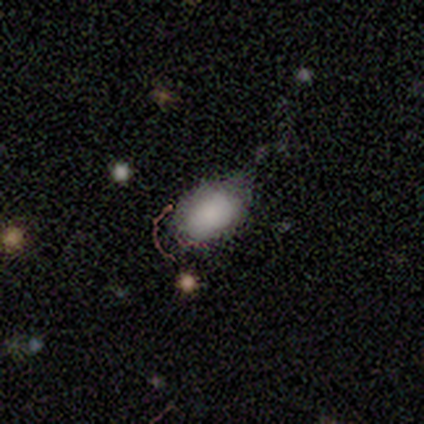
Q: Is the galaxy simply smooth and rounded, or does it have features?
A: smooth — 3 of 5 (60%).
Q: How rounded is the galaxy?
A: in between — 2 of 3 (67%).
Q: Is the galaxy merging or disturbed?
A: minor disturbance — 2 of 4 (50%).